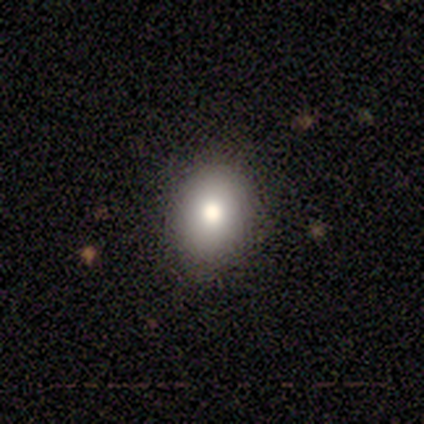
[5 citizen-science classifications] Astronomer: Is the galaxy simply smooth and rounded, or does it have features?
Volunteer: smooth — 60%.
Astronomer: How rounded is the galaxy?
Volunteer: in between — 67%.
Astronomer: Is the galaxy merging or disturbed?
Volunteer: none — 100%.